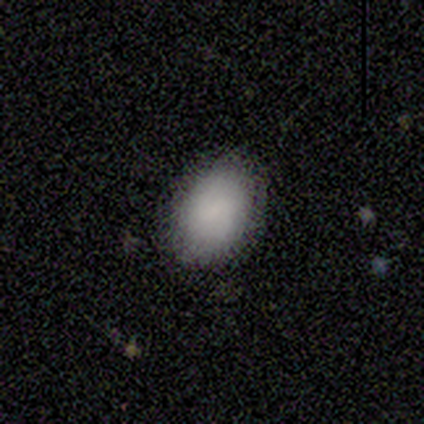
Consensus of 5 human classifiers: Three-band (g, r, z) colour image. It shows a smooth galaxy with no disk features (80%) that is in between round and cigar-shaped (75%). Merging: none (80%).